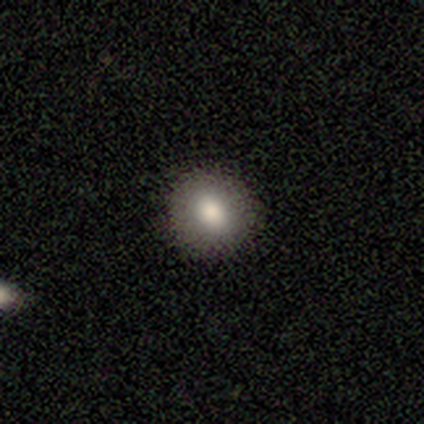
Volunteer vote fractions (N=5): smooth_or_featured: smooth (p=0.60) [alt: featured or disk p=0.40]
how_rounded: round (p=1.00)
merging: none (p=1.00)